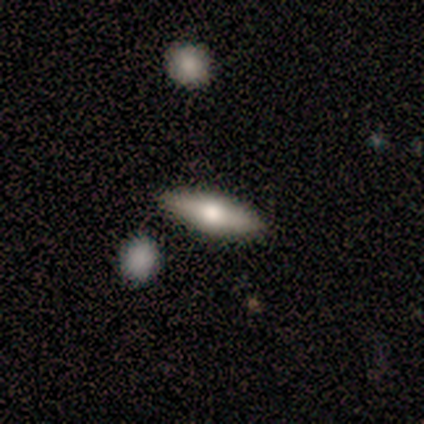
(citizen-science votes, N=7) Smooth or featured? 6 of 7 (86%) said smooth. How rounded? 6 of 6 (100%) said in between. Merging? 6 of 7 (86%) said none.